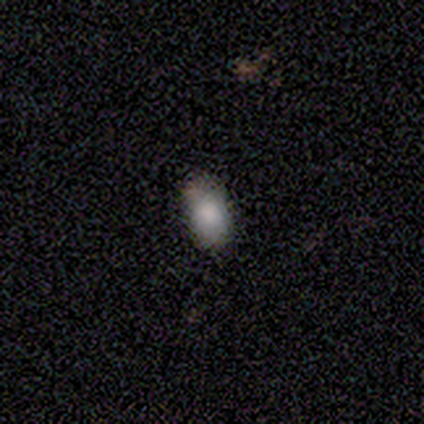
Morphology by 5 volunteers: Overall: smooth (100%). How rounded: in between (100%). Merging: none (60%; minor disturbance 20%).